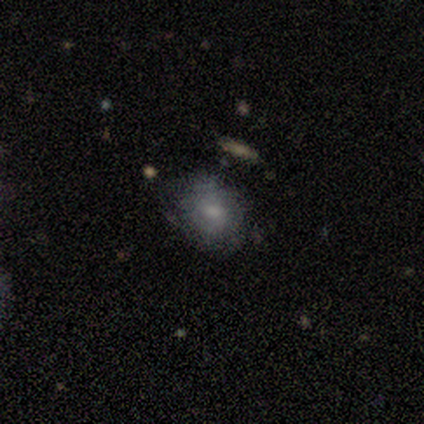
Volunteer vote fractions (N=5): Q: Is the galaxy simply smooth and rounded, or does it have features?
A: smooth — 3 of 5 (60%).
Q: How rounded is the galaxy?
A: in between — 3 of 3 (100%).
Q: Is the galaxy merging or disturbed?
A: none — 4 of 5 (80%).